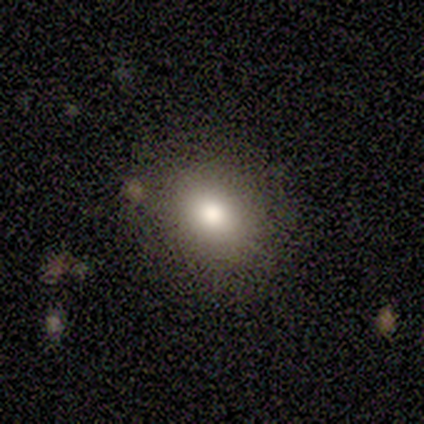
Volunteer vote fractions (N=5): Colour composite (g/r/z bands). It shows a smooth galaxy with no disk features (80%) that is in between round and cigar-shaped (75%). Merging: none (100%).